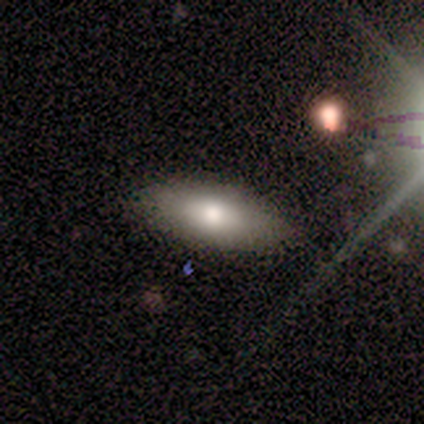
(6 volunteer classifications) A smooth galaxy with no disk features (83%) that is in between round and cigar-shaped (80%). Merging: none (100%).